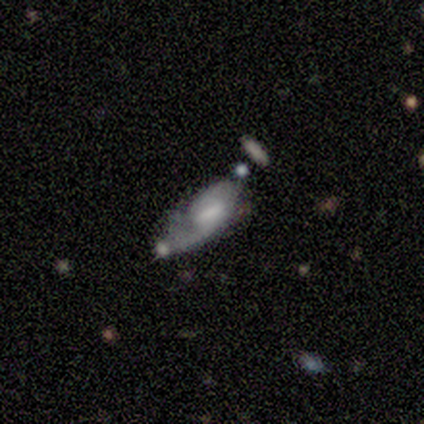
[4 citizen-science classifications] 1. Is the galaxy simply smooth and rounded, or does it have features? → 50% smooth (tied), 50% featured or disk (tied), 0% star or artifact.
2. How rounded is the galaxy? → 100% in between, 0% round, 0% cigar-shaped.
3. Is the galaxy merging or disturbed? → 50% none, 25% minor disturbance, 25% major disturbance, 0% merger.